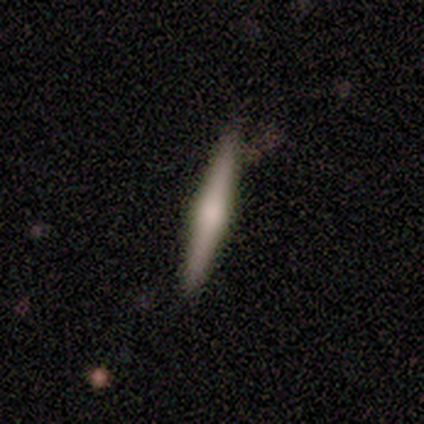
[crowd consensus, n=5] Smooth or featured?
  - smooth: 60% *
  - featured or disk: 40%
  - star or artifact: 0%
How rounded?
  - cigar-shaped: 100% *
  - round: 0%
  - in between: 0%
Merging?
  - none: 100% *
  - minor disturbance: 0%
  - major disturbance: 0%
  - merger: 0%